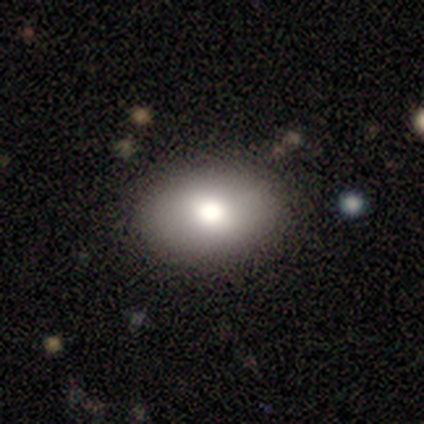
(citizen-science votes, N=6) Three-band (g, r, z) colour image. It shows a smooth galaxy with no disk features (67%) that is in between round and cigar-shaped (100%). Merging: none (100%).